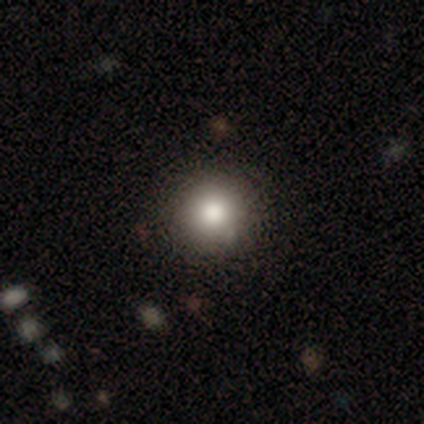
Q: Smooth or featured?
A: smooth (75%); runner-up: featured or disk (25%)
Q: How rounded?
A: round (100%)
Q: Merging?
A: none (75%); runner-up: minor disturbance (25%)